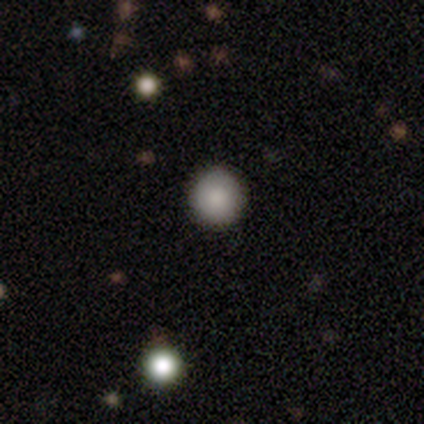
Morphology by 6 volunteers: Q: Smooth or featured?
A: smooth (50%); tied with: star or artifact (50%)
Q: How rounded?
A: round (100%)
Q: Merging?
A: none (100%)